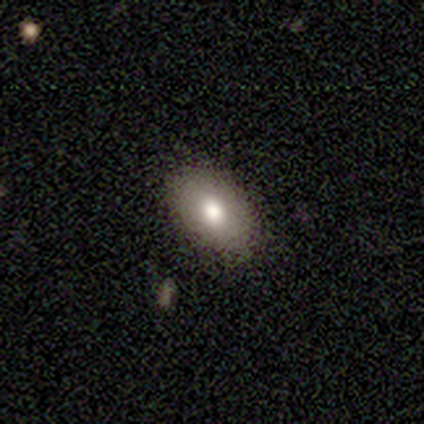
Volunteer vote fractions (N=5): smooth 100%, featured or disk 0%, star or artifact 0%. Down the decision tree: how rounded — in between (60%); merging — none (100%).